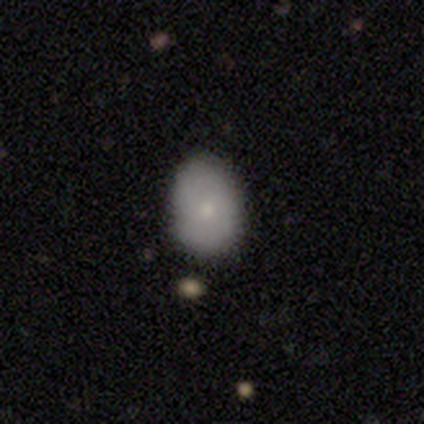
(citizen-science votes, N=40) Smooth or featured? smooth (75%)
How rounded? in between (73%)
Merging? none (78%)